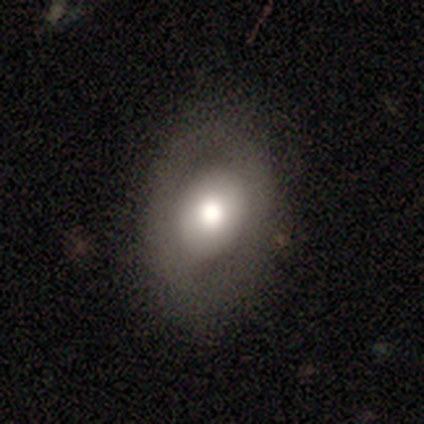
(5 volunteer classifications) Smooth or featured? 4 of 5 (80%) said smooth. How rounded? 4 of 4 (100%) said in between. Merging? 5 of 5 (100%) said none.